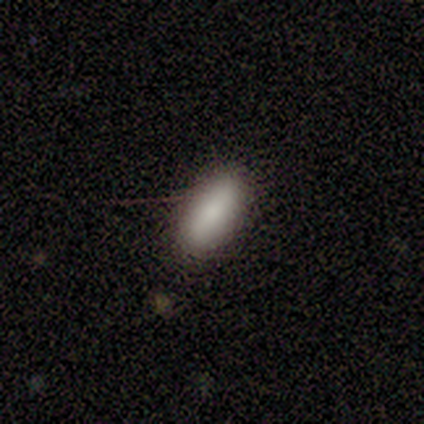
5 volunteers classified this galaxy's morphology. This appears to be a smooth galaxy with no disk features (80%) that is in between round and cigar-shaped (75%). Merging: none (40%, tied with major disturbance).